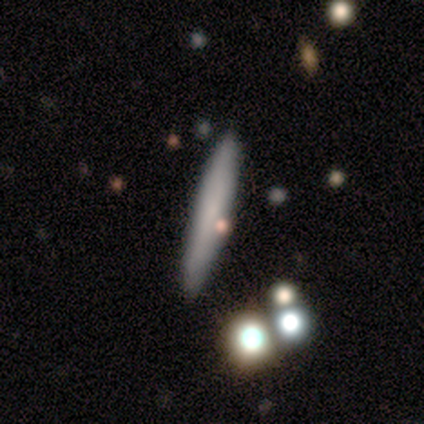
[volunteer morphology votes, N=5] A smooth galaxy with no disk features (60%) that is cigar-shaped (100%). Merging: none (80%).